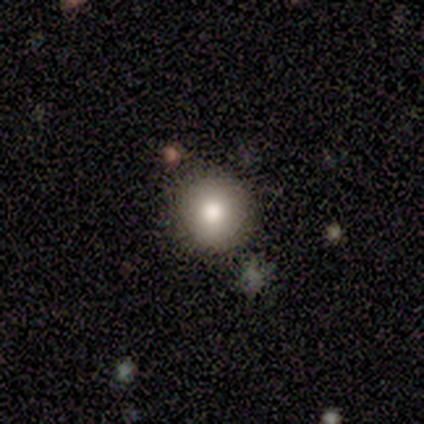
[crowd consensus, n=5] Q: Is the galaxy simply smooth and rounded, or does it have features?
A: smooth — 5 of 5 (100%).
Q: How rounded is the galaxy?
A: round — 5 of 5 (100%).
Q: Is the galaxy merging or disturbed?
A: none — 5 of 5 (100%).